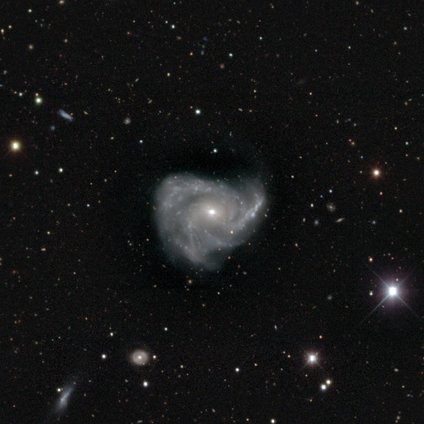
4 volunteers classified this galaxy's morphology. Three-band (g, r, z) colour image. It shows a featured or disk galaxy (100%) with no bar (75%), 3 (50%) tight (50%, tied with medium) spiral arms (100%) and a small central bulge (75%). Merging: minor disturbance (50%).